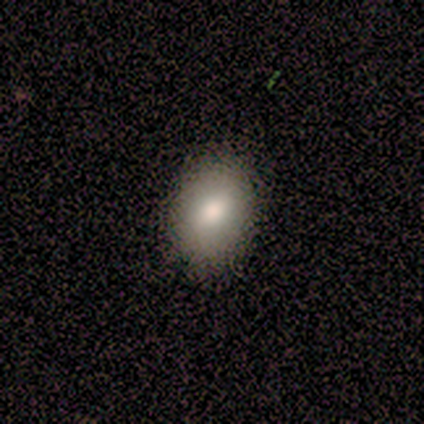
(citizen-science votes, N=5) This appears to be a smooth galaxy with no disk features (100%) that is in between round and cigar-shaped (80%). Merging: none (80%).